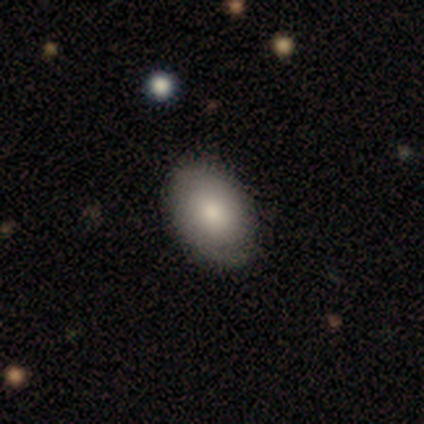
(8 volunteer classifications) Smooth or featured?
  - smooth: 50% * (tied)
  - featured or disk: 50% * (tied)
  - star or artifact: 0%
How rounded?
  - in between: 100% *
  - round: 0%
  - cigar-shaped: 0%
Merging?
  - none: 88% *
  - minor disturbance: 12%
  - major disturbance: 0%
  - merger: 0%